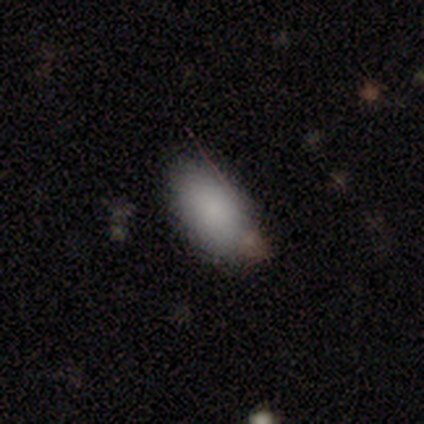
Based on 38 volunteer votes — Smooth or featured? smooth (87%)
How rounded? in between (100%)
Merging? none (67%)